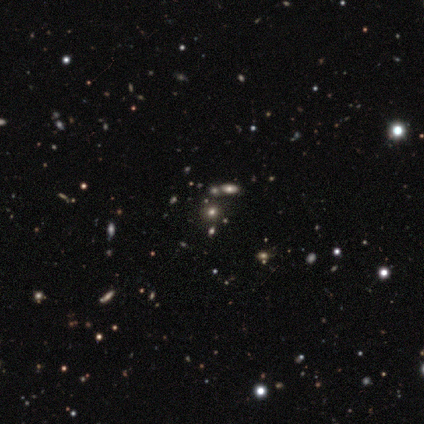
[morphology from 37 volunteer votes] This is possibly a star or artifact rather than a galaxy (59%).